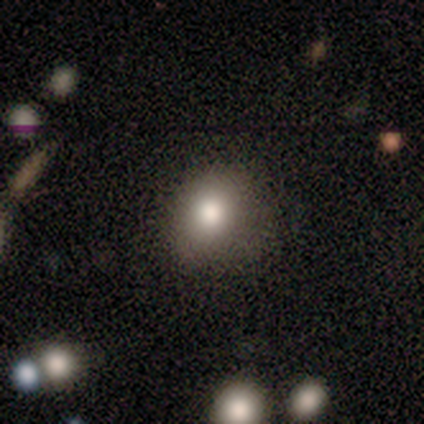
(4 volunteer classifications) smooth-or-featured: smooth: 75% | star or artifact: 25% | featured or disk: 0%
  how-rounded: round: 100% | in between: 0% | cigar-shaped: 0%
  merging: none: 100% | minor disturbance: 0% | major disturbance: 0% | merger: 0%